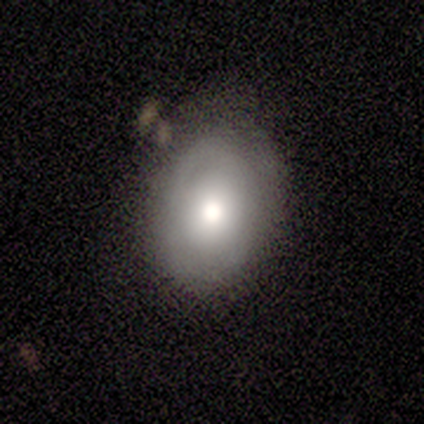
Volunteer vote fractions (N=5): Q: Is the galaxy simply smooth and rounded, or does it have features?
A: smooth — 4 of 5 (80%).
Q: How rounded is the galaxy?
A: in between — 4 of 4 (100%).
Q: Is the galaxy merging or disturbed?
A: none — 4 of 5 (80%).